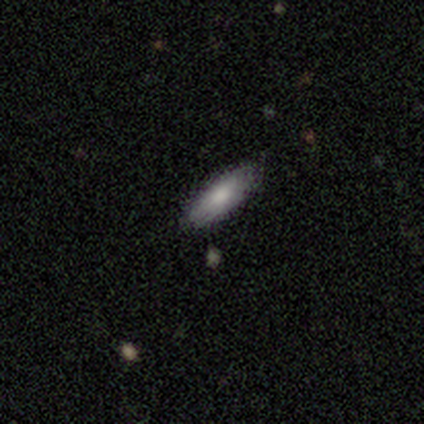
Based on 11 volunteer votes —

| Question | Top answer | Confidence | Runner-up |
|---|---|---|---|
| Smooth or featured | smooth | 73% | featured or disk (18%) |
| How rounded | in between | 75% | cigar-shaped (25%) |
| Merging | none | 100% | — |